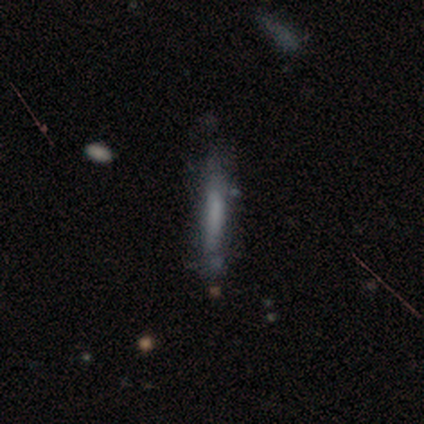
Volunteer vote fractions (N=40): Volunteers were most divided on "smooth or featured": smooth: 62%, featured or disk: 32%, star or artifact: 5%. More confident: how rounded — cigar-shaped (96%); merging — none (71%).